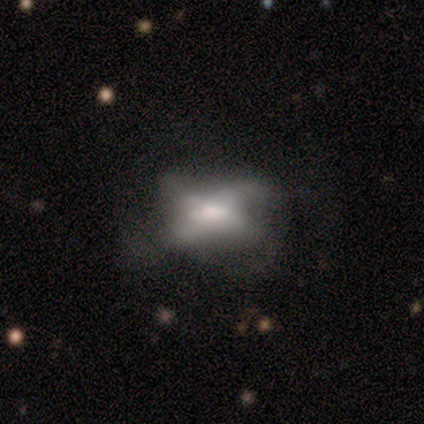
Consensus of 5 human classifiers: Smooth or featured?
  - featured or disk: 80% *
  - smooth: 20%
  - star or artifact: 0%
Edge-on disk?
  - no: 100% *
  - yes: 0%
Bar?
  - weak: 75% *
  - no: 25%
  - strong: 0%
Spiral arms?
  - yes: 75% *
  - no: 25%
Spiral winding?
  - loose: 67% *
  - medium: 33%
  - tight: 0%
Spiral arm count?
  - 4: 100% *
  - 1: 0%
  - 2: 0%
  - 3: 0%
  - more than 4: 0%
  - can't tell: 0%
Bulge size?
  - moderate: 75% *
  - large: 25%
  - dominant: 0%
  - small: 0%
  - none: 0%
Merging?
  - minor disturbance: 60% *
  - none: 40%
  - major disturbance: 0%
  - merger: 0%